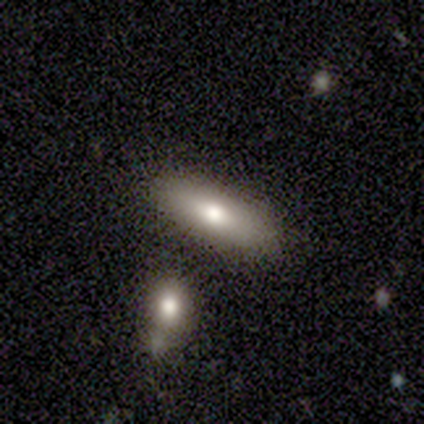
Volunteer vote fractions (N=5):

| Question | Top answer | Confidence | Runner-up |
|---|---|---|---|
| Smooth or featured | smooth | 100% | — |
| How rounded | in between | 60% | cigar-shaped (40%) |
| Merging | none | 100% | — |